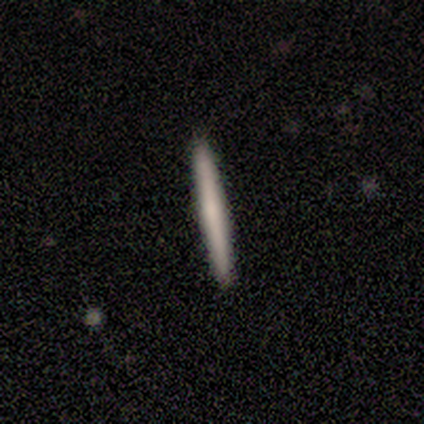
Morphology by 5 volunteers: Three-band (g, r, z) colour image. It shows a smooth galaxy with no disk features (80%) that is cigar-shaped (100%). Merging: none (75%).